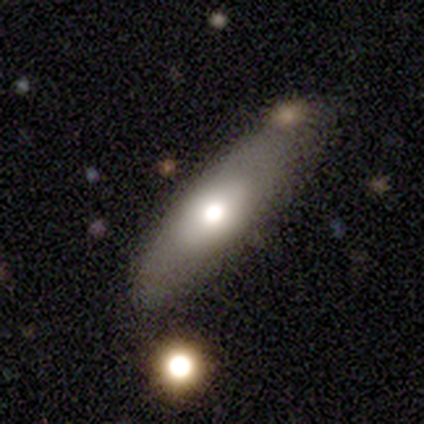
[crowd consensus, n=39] This is possibly a smooth galaxy (56%). How rounded: likely in between (64%). Merging: possibly none (56%).